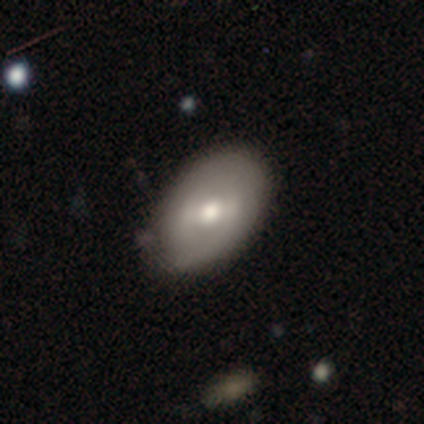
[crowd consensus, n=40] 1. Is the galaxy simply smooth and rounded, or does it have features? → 52% featured or disk, 40% smooth, 8% star or artifact.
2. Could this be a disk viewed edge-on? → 100% no, 0% yes.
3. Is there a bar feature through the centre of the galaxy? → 52% weak, 29% no, 19% strong.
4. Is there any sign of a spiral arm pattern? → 67% no, 33% yes.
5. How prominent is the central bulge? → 48% moderate, 29% small, 14% large, 5% dominant, 5% none.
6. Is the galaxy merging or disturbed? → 73% none, 22% minor disturbance, 5% major disturbance, 0% merger.